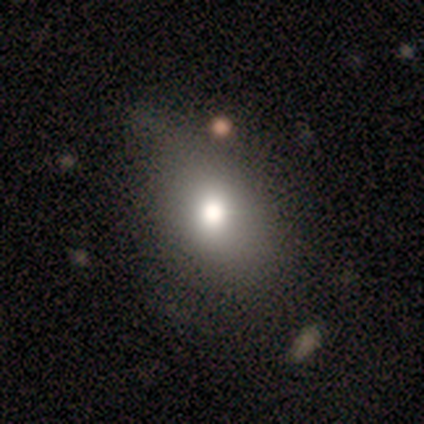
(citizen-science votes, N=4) smooth_or_featured: smooth (p=0.50) [alt: featured or disk p=0.25]
how_rounded: round (p=1.00)
merging: none (p=1.00)